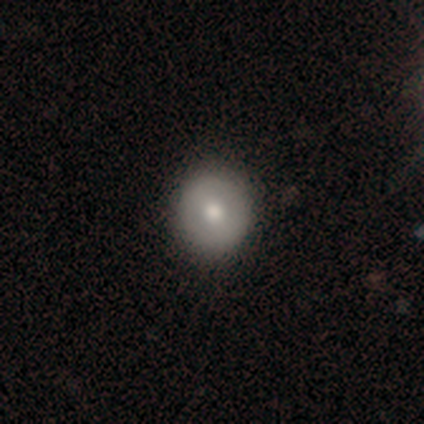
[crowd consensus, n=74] Q: Smooth or featured?
A: smooth (54%); runner-up: featured or disk (41%)
Q: How rounded?
A: round (88%); runner-up: in between (12%)
Q: Merging?
A: none (59%); runner-up: minor disturbance (7%)